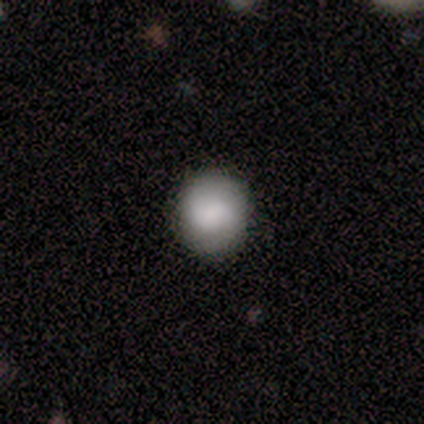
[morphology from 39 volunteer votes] smooth_or_featured: smooth (p=0.79) [alt: featured or disk p=0.15]
how_rounded: round (p=0.94) [alt: in between p=0.06]
merging: none (p=0.86) [alt: minor disturbance p=0.14]